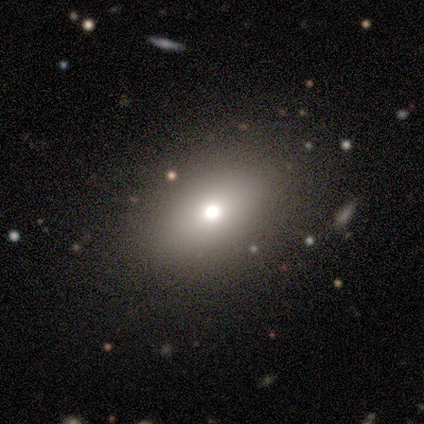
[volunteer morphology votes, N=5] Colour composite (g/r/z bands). It shows a smooth galaxy with no disk features (60%) that is round (67%). Merging: none (100%).